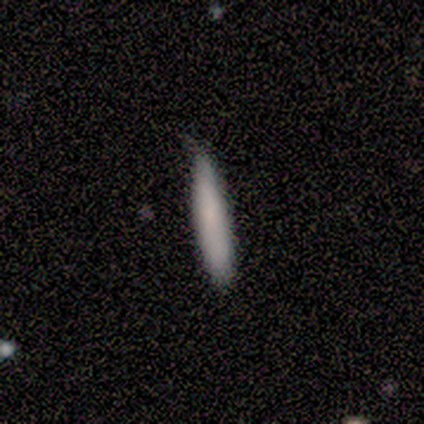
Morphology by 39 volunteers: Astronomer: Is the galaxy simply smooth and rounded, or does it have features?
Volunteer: smooth — 85%.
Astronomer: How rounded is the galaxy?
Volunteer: cigar-shaped — 94%.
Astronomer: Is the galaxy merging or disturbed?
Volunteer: none — 82%.